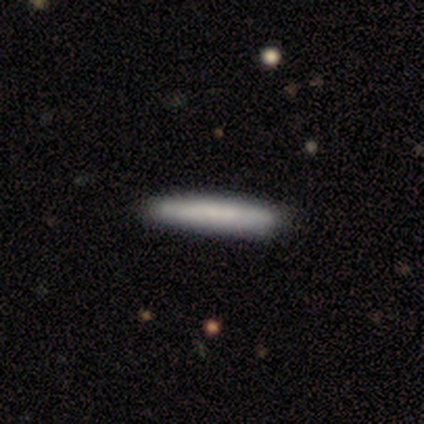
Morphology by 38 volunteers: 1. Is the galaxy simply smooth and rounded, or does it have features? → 82% smooth, 11% featured or disk, 8% star or artifact.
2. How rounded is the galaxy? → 97% cigar-shaped, 3% in between, 0% round.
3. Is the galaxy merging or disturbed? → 60% none, 3% minor disturbance, 0% major disturbance, 0% merger.